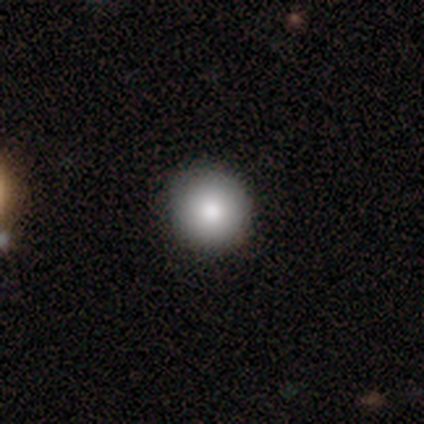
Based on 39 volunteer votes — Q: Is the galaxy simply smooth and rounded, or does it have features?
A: smooth — 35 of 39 (90%).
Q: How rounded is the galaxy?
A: round — 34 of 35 (97%).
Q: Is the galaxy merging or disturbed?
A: none — 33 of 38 (87%).